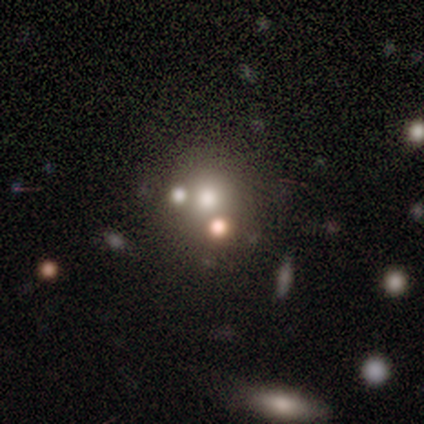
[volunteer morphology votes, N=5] Overall: smooth (60%; star or artifact 40%). How rounded: round (100%). Merging: none (100%).